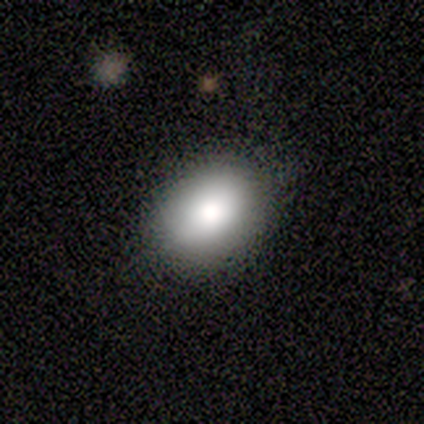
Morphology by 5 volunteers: smooth-or-featured: smooth: 100% | featured or disk: 0% | star or artifact: 0%
  how-rounded: in between: 100% | round: 0% | cigar-shaped: 0%
  merging: none: 100% | minor disturbance: 0% | major disturbance: 0% | merger: 0%